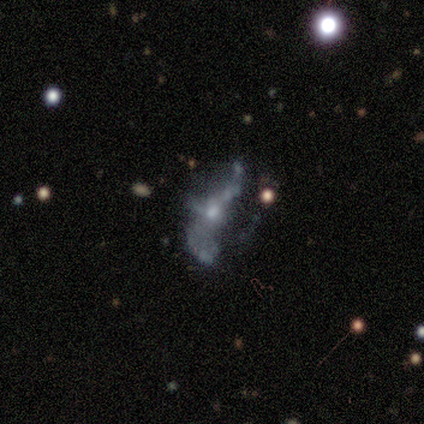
A featured or disk galaxy (79%) with no bar (77%), no spiral arms (60%) and a small central bulge (53%). Merging: major disturbance (41%).